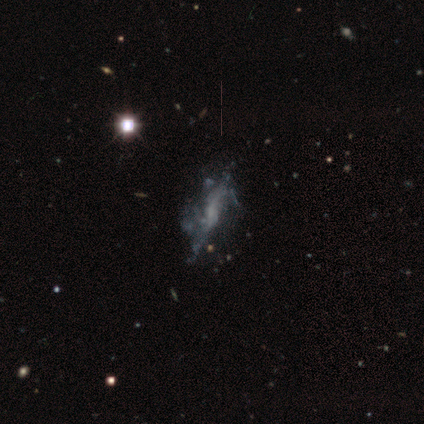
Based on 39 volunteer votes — featured or disk 72%, star or artifact 21%, smooth 8%. Down the decision tree: edge-on disk — no (93%); bar — no (88%); spiral arms — no (65%); bulge size — none (54%); merging — major disturbance (35%).